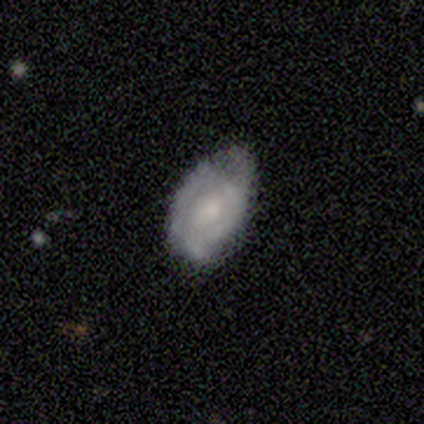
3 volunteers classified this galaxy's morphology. featured or disk 100%, smooth 0%, star or artifact 0%. Down the decision tree: edge-on disk — no (100%); bar — strong (33%, tied with weak and no); spiral arms — yes (100%); spiral arm count — can't tell (67%); spiral winding — tight (100%); bulge size — moderate (67%); merging — none (67%).